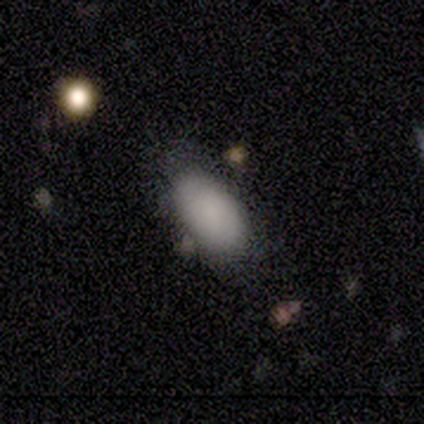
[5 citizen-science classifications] Smooth or featured: smooth — 100%
How rounded: in between — 100%
Merging: none — 80% (minor disturbance — 20%)